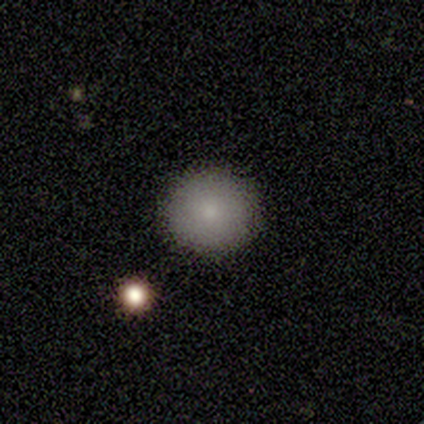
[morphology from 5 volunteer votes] Smooth or featured? smooth (80%)
How rounded? round (100%)
Merging? none (75%)